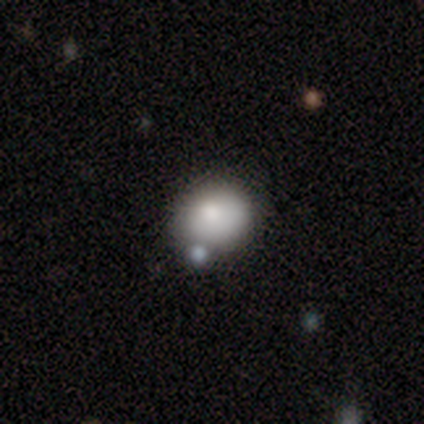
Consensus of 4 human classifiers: Smooth or featured? 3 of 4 (75%) said smooth. How rounded? 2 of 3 (67%) said in between. Merging? 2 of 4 (50%, tied with minor disturbance) said none.